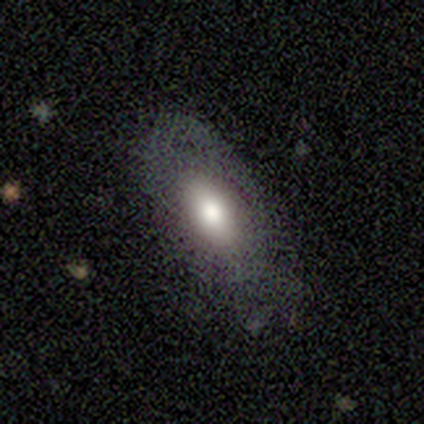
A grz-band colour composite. It shows a featured or disk galaxy (60%) with a strong bar (67%), no spiral arms (100%) and a large central bulge (33%, tied with moderate and small). Merging: none (80%).